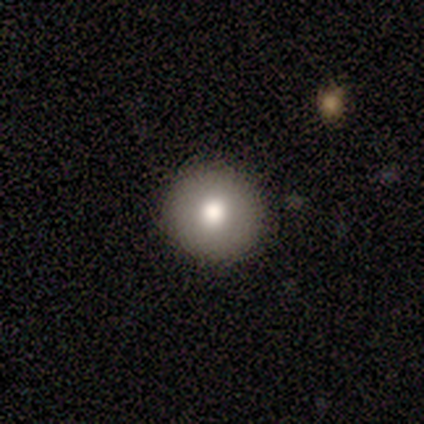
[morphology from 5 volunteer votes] A smooth galaxy with no disk features (100%) that is round (100%). Merging: none (100%).